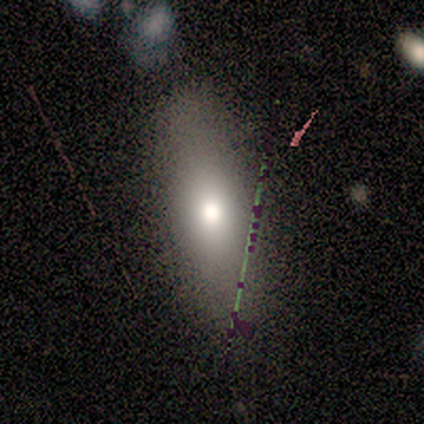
Smooth or featured?
  - smooth: 60% *
  - star or artifact: 40%
  - featured or disk: 0%
How rounded?
  - in between: 67% *
  - cigar-shaped: 33%
  - round: 0%
Merging?
  - none: 67% *
  - minor disturbance: 33%
  - major disturbance: 0%
  - merger: 0%